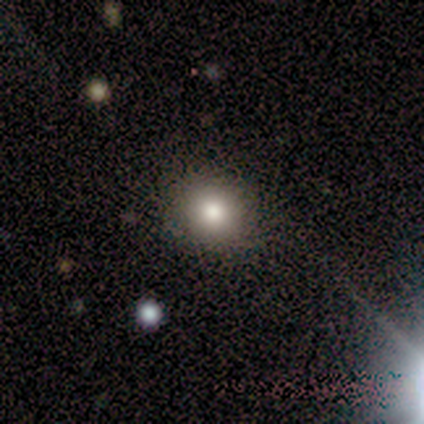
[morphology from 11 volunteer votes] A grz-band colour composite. It shows a smooth galaxy with no disk features (64%) that is round (86%). Merging: none (100%).